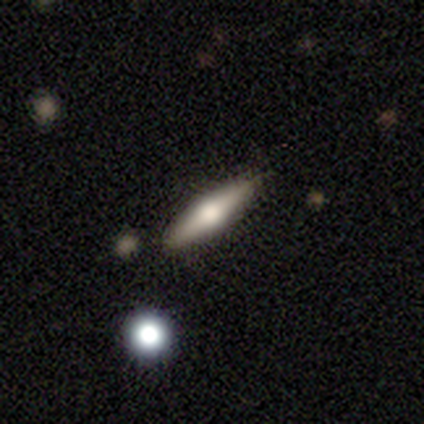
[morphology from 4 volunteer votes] smooth_or_featured: smooth (p=0.50) [tied with: featured or disk p=0.50]
how_rounded: cigar-shaped (p=1.00)
merging: none (p=0.75) [alt: minor disturbance p=0.25]